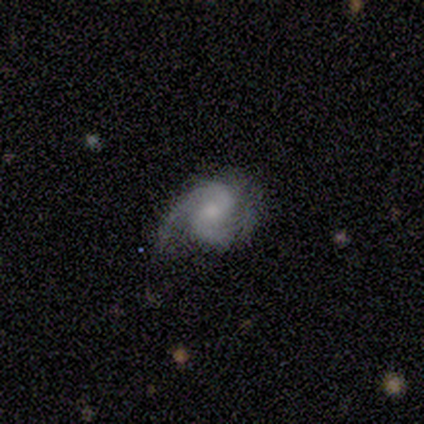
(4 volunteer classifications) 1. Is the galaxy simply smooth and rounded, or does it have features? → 75% featured or disk, 25% smooth, 0% star or artifact.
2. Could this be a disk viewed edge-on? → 100% no, 0% yes.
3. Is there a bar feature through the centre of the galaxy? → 100% no, 0% strong, 0% weak.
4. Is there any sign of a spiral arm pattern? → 100% yes, 0% no.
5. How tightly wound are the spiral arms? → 67% medium, 33% loose, 0% tight.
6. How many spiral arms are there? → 100% 2, 0% 1, 0% 3, 0% 4, 0% more than 4, 0% can't tell.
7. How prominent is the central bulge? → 33% moderate (tied), 33% small (tied), 33% none (tied), 0% dominant, 0% large.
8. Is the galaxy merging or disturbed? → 50% none (tied), 50% minor disturbance (tied), 0% major disturbance, 0% merger.